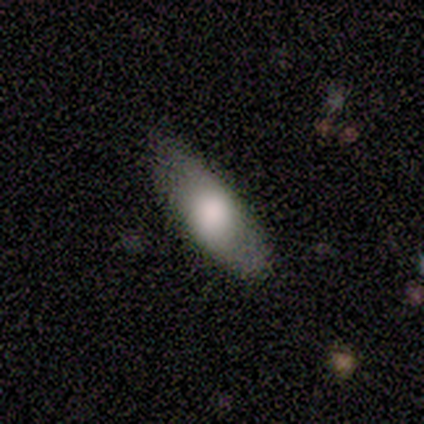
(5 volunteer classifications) Smooth or featured?
  - smooth: 100% *
  - featured or disk: 0%
  - star or artifact: 0%
How rounded?
  - in between: 80% *
  - cigar-shaped: 20%
  - round: 0%
Merging?
  - none: 60% *
  - minor disturbance: 40%
  - major disturbance: 0%
  - merger: 0%